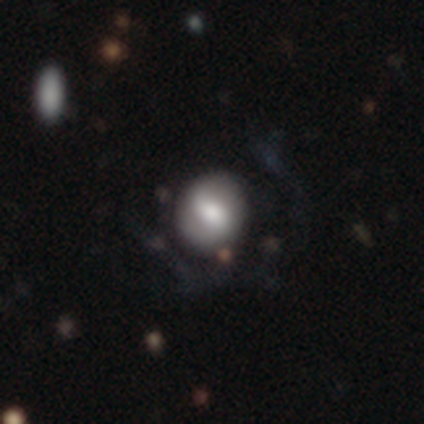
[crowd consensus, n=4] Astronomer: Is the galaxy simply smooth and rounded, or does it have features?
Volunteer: smooth — 50%, tied with featured or disk at 50%.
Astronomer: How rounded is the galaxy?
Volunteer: round — 50%, tied with in between at 50%.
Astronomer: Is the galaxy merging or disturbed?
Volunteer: none — 50%.